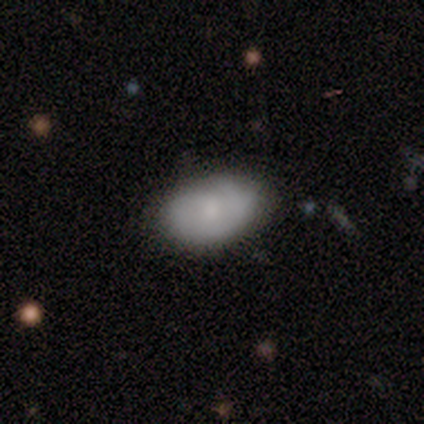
Smooth or featured? smooth (72%)
How rounded? in between (94%)
Merging? none (90%)